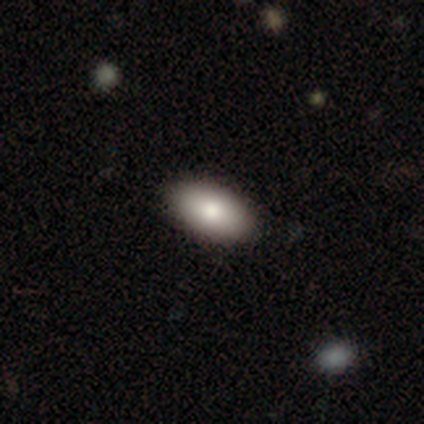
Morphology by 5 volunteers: type=smooth (80%); roundness=in between (100%); merging=none (100%).